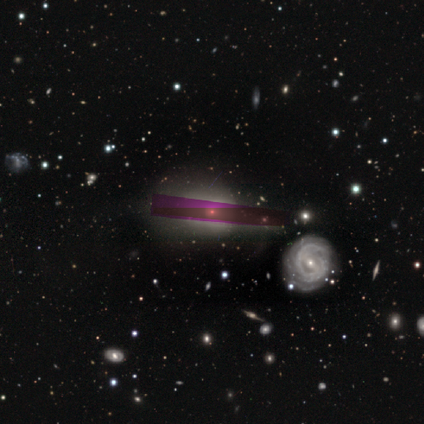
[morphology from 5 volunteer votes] Overall: star or artifact (60%; featured or disk 40%).